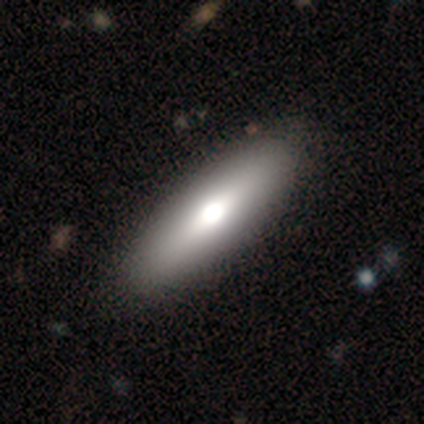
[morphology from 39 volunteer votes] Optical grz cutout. It shows a smooth galaxy with no disk features (67%) that is cigar-shaped (54%). Merging: none (61%).